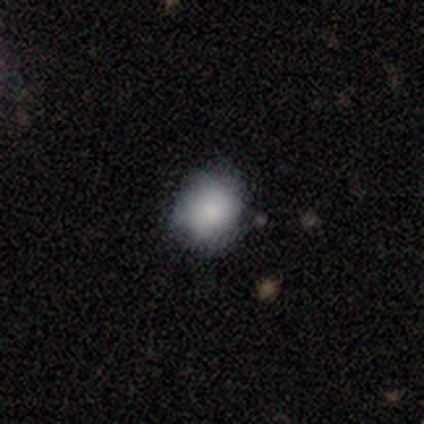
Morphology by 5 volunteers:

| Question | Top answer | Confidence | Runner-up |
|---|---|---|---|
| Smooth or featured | smooth | 80% | featured or disk (20%) |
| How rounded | round | 100% | — |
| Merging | none | 80% | minor disturbance (20%) |